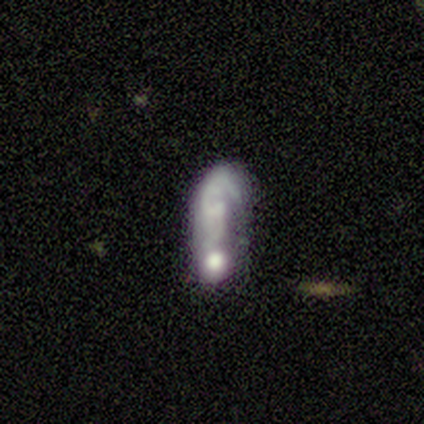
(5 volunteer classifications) A smooth galaxy with no disk features (80%) that is in between round and cigar-shaped (50%, tied with cigar-shaped). Merging: major disturbance (40%, tied with merger).